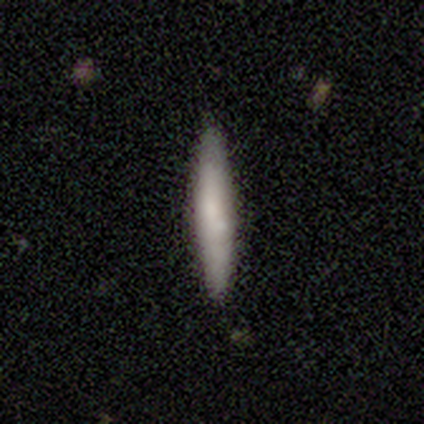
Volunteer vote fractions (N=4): smooth_or_featured: smooth (p=0.75) [alt: featured or disk p=0.25]
how_rounded: cigar-shaped (p=1.00)
merging: none (p=1.00)